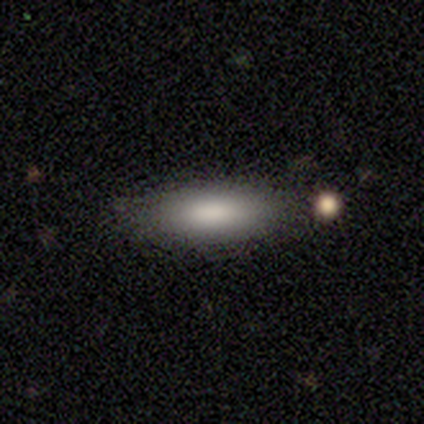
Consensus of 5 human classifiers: This is clearly a smooth galaxy (100%). How rounded: clearly in between (100%). Merging: clearly none (100%).